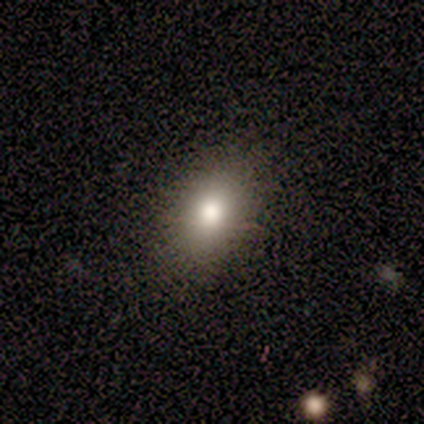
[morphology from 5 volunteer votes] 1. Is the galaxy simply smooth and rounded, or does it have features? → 100% smooth, 0% featured or disk, 0% star or artifact.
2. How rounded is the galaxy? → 100% in between, 0% round, 0% cigar-shaped.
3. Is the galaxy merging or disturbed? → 100% none, 0% minor disturbance, 0% major disturbance, 0% merger.